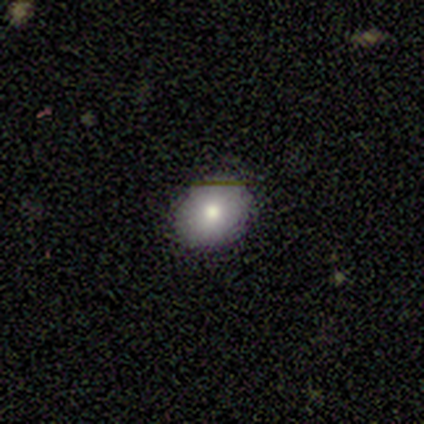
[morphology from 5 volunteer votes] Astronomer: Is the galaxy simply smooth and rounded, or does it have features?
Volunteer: smooth — 60%.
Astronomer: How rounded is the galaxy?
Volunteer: round — 100%.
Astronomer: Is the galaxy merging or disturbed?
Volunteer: none — 50%, tied with minor disturbance at 50%.